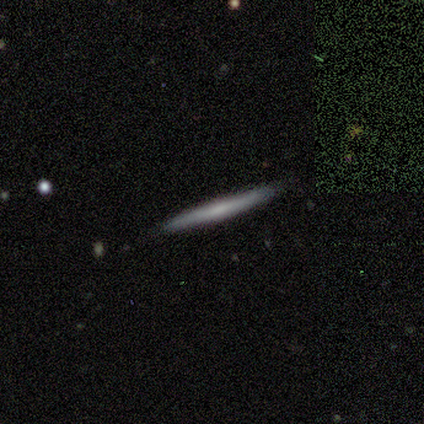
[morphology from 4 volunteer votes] smooth-or-featured: featured or disk: 50% | smooth: 25% | star or artifact: 25%
  disk-edge-on: yes: 100% | no: 0%
    edge-on-bulge: none: 50% (tied) | rounded: 50% (tied) | boxy: 0%
  merging: none: 100% | minor disturbance: 0% | major disturbance: 0% | merger: 0%